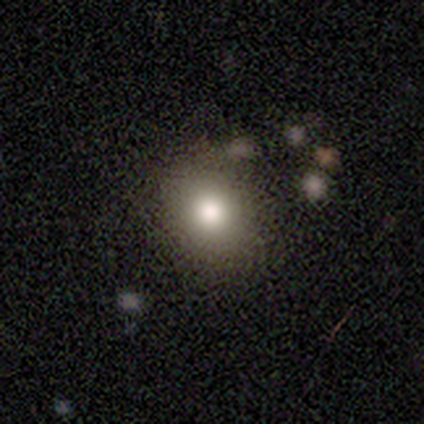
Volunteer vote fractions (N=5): A smooth galaxy with no disk features (100%) that is round (100%). Merging: none (100%).